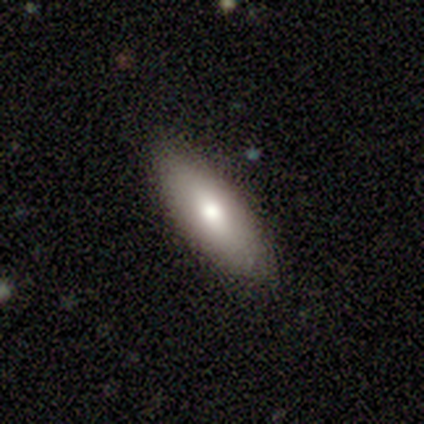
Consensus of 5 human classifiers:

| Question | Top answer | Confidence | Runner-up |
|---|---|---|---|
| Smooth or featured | featured or disk | 60% | smooth (40%) |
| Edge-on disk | no | 67% | yes (33%) |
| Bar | no | 100% | — |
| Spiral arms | no | 100% | — |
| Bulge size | moderate | 100% | — |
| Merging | none | 80% | major disturbance (20%) |